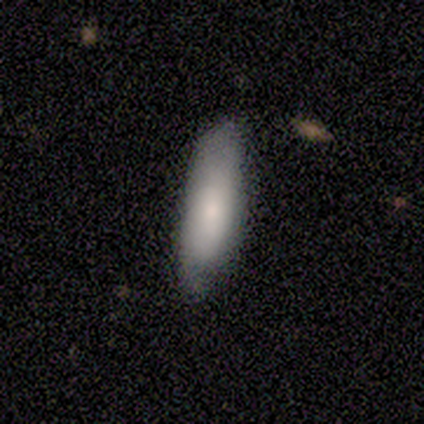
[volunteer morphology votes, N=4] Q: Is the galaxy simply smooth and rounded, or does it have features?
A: smooth — 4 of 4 (100%).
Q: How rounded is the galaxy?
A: in between — 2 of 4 (50%, tied with cigar-shaped).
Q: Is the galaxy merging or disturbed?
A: none — 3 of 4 (75%).